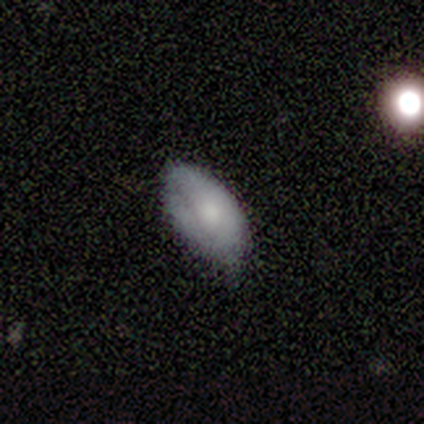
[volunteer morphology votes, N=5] A featured or disk galaxy (60%) with no bar (100%), medium (100%) spiral arms (67%) and a small central bulge (67%).

Vote fractions:
- Smooth or featured? featured or disk: 60% / smooth: 40% / star or artifact: 0%
- Edge-on disk? no: 100% / yes: 0%
- Bar? no: 100% / strong: 0% / weak: 0%
- Spiral arms? yes: 67% / no: 33%
- Spiral winding? medium: 100% / tight: 0% / loose: 0%
- Spiral arm count? can't tell: 100% / 1: 0% / 2: 0% / 3: 0% / 4: 0% / more than 4: 0%
- Bulge size? small: 67% / moderate: 33% / dominant: 0% / large: 0% / none: 0%
- Merging? none: 60% / minor disturbance: 40% / major disturbance: 0% / merger: 0%